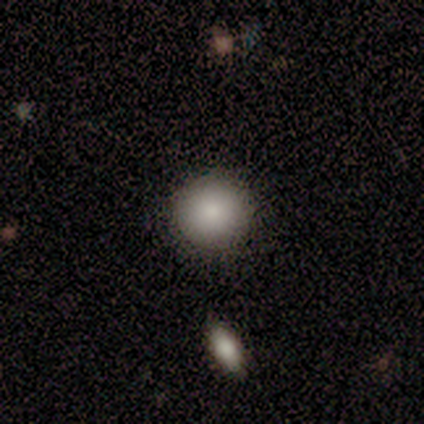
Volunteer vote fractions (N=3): smooth-or-featured: smooth: 100% | featured or disk: 0% | star or artifact: 0%
  how-rounded: round: 100% | in between: 0% | cigar-shaped: 0%
  merging: none: 100% | minor disturbance: 0% | major disturbance: 0% | merger: 0%